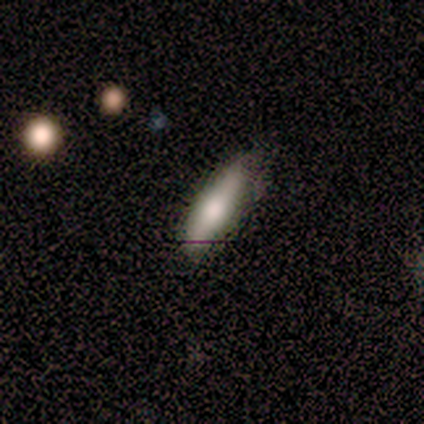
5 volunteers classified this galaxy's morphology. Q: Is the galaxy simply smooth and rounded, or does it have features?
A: smooth — 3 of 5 (60%).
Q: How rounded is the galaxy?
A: cigar-shaped — 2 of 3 (67%).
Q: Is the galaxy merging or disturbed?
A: none — 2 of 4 (50%, tied with minor disturbance).